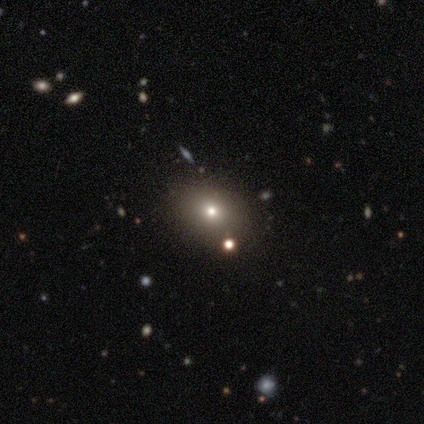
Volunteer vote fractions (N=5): smooth_or_featured: smooth (p=0.80) [alt: star or artifact p=0.20]
how_rounded: round (p=0.75) [alt: in between p=0.25]
merging: none (p=1.00)